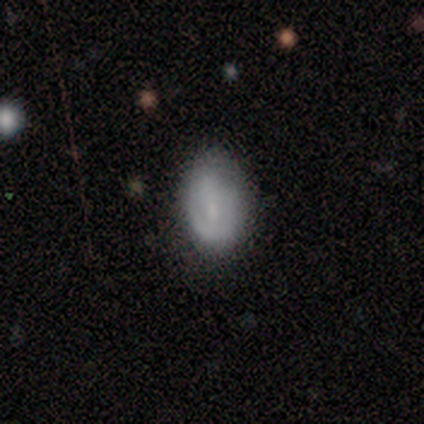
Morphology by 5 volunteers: type=smooth (60%); roundness=in between (67%); merging=none (50%).